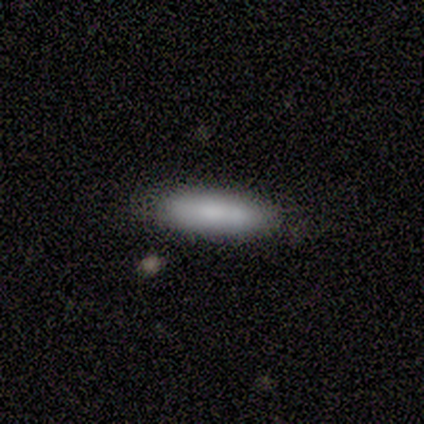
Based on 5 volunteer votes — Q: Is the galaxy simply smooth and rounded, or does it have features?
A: smooth — 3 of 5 (60%).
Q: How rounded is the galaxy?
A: cigar-shaped — 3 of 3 (100%).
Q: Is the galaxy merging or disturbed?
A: none — 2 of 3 (67%).